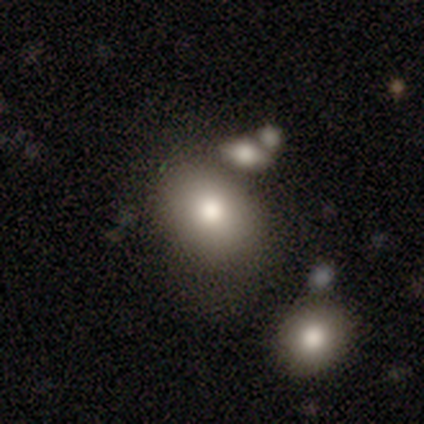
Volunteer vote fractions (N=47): Smooth or featured: smooth — 81% (featured or disk — 15%)
How rounded: in between — 53% (round — 47%)
Merging: none — 71% (minor disturbance — 13%)